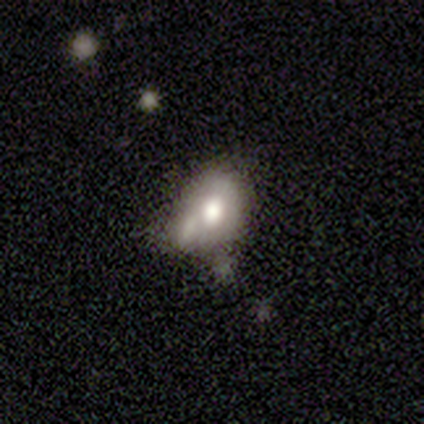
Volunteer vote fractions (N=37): Volunteers were most divided on "merging": merger: 46%, none: 22%, minor disturbance: 22%, major disturbance: 11%. More confident: how rounded — in between (72%); smooth or featured — smooth (68%).